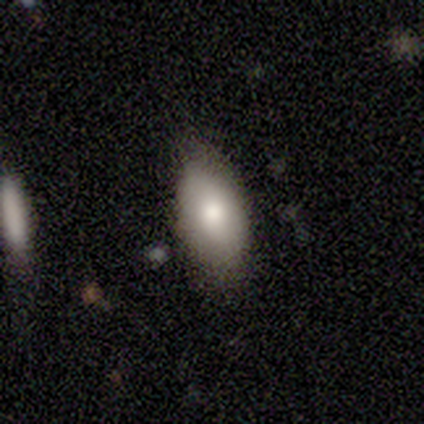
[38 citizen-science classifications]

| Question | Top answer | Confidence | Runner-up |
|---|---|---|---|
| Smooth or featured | smooth | 76% | featured or disk (16%) |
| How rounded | in between | 100% | — |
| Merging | none | 74% | minor disturbance (20%) |